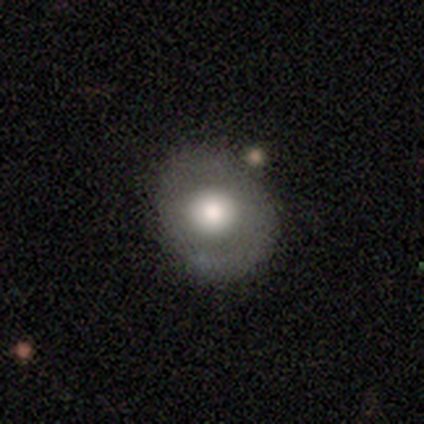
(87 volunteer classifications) A smooth galaxy with no disk features (55%) that is round (67%).

Vote fractions:
- Smooth or featured? smooth: 55% / featured or disk: 36% / star or artifact: 9%
- How rounded? round: 67% / in between: 31% / cigar-shaped: 2%
- Merging? none: 72% / minor disturbance: 15% / major disturbance: 9% / merger: 4%